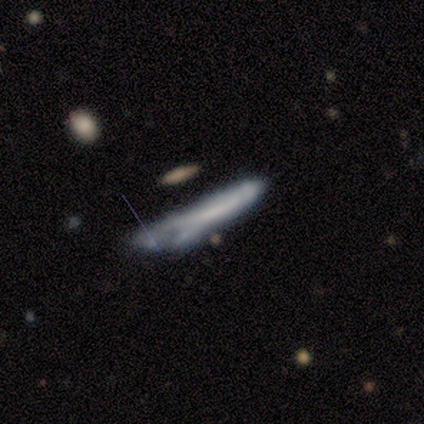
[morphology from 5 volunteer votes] Q: Smooth or featured?
A: smooth (100%)
Q: How rounded?
A: cigar-shaped (60%); runner-up: in between (40%)
Q: Merging?
A: minor disturbance (80%); runner-up: none (20%)